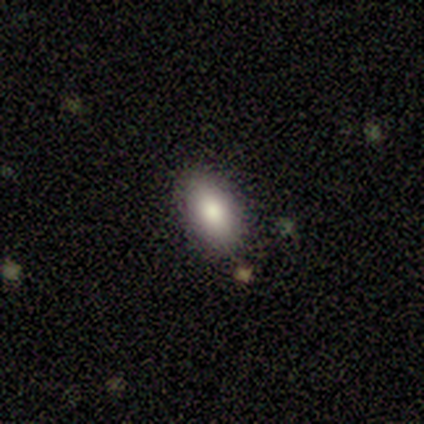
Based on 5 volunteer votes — smooth_or_featured: smooth (p=0.80) [alt: featured or disk p=0.20]
how_rounded: in between (p=0.75) [alt: cigar-shaped p=0.25]
merging: none (p=1.00)